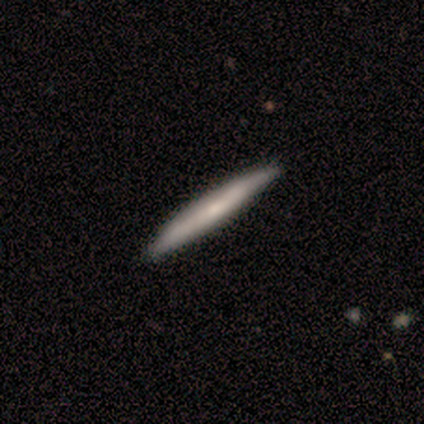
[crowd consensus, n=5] Overall: smooth (60%; featured or disk 40%). How rounded: cigar-shaped (100%). Merging: none (100%).